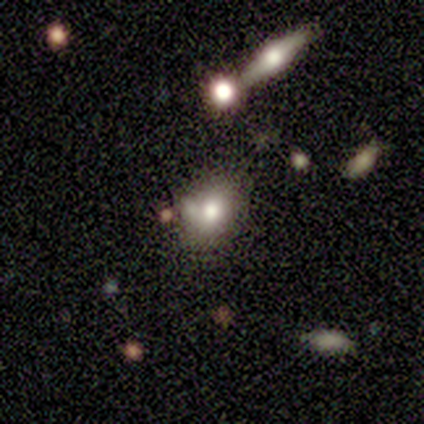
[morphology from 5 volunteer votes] Volunteers were most divided on "smooth or featured": smooth: 60%, featured or disk: 40%, star or artifact: 0%. Remaining: how rounded — in between (100%); merging — none (40%).